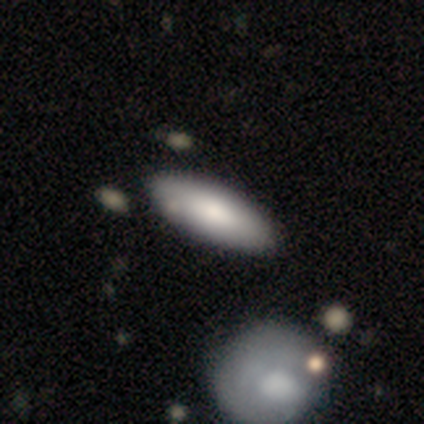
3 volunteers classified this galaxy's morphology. smooth 100%, featured or disk 0%, star or artifact 0%. Down the decision tree: how rounded — in between (100%); merging — none (100%).